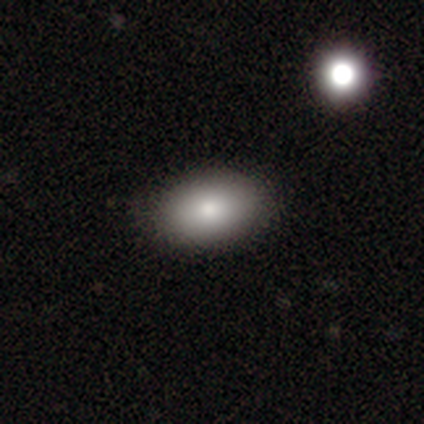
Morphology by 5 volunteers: Smooth or featured?
  - smooth: 80% *
  - featured or disk: 20%
  - star or artifact: 0%
How rounded?
  - in between: 75% *
  - round: 25%
  - cigar-shaped: 0%
Merging?
  - none: 100% *
  - minor disturbance: 0%
  - major disturbance: 0%
  - merger: 0%